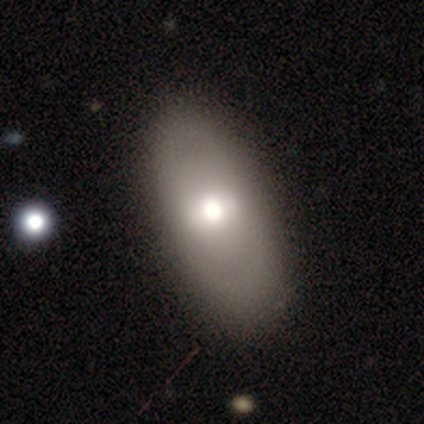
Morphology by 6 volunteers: featured or disk 83%, smooth 17%, star or artifact 0%. Down the decision tree: edge-on disk — no (100%); bar — strong (60%); spiral arms — no (100%); bulge size — moderate (60%); merging — none (50%).